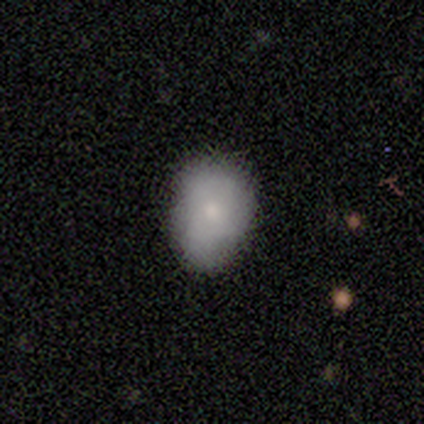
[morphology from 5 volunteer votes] type=smooth (100%); roundness=in between (60%); merging=none (80%).